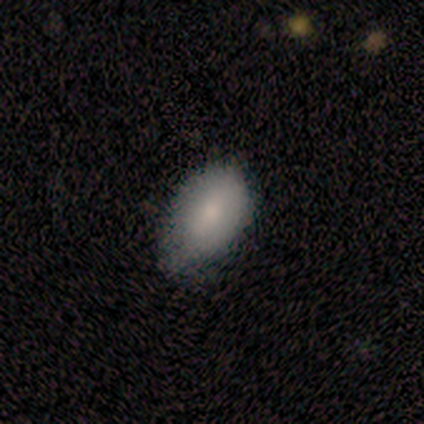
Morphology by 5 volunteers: This appears to be a smooth galaxy with no disk features (100%) that is in between round and cigar-shaped (100%). Merging: none (80%).